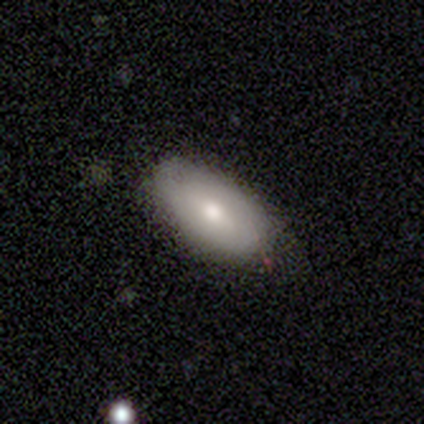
Morphology: type=smooth (50%, tied with featured or disk); roundness=in between (100%); merging=none (83%).